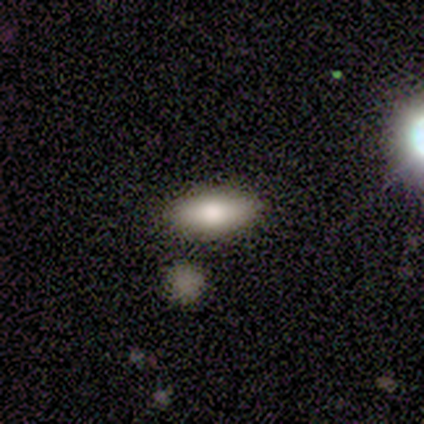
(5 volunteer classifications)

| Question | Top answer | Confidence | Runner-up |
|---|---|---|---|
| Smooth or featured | smooth | 60% | featured or disk (40%) |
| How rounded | in between | 100% | — |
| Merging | none | 80% | merger (20%) |